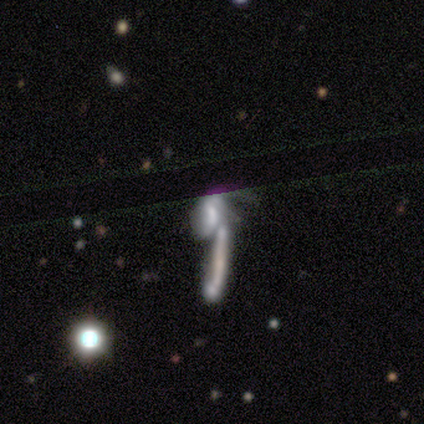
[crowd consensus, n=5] Overall: featured or disk (80%). Edge-on disk: no (100%). Bar: weak (50%, tied with no). Spiral arms: yes (50%, tied with no). Spiral arm count: can't tell (100%). Spiral winding: tight (50%, tied with loose). Bulge size: small (100%). Merging: merger (100%).